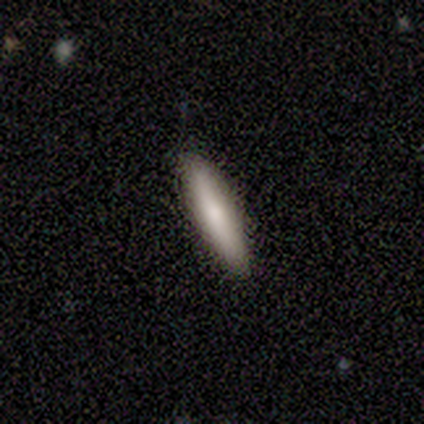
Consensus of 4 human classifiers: This is possibly a smooth galaxy (50%, tied with featured or disk). How rounded: possibly in between (50%, tied with cigar-shaped). Merging: clearly none (100%).